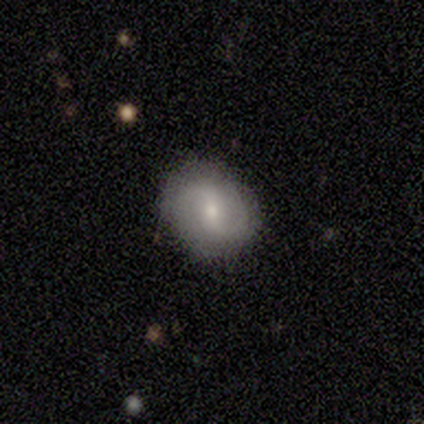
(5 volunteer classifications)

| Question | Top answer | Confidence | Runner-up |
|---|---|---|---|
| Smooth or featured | featured or disk | 60% | smooth (40%) |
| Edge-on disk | no | 100% | — |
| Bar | weak | 67% | no (33%) |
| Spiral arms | yes | 67% | no (33%) |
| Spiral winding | medium | 50% | tied: loose (50%) |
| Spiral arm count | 2 | 100% | — |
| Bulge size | moderate | 33% | tied: small (33%), none (33%) |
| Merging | none | 40% | tied: minor disturbance (40%) |